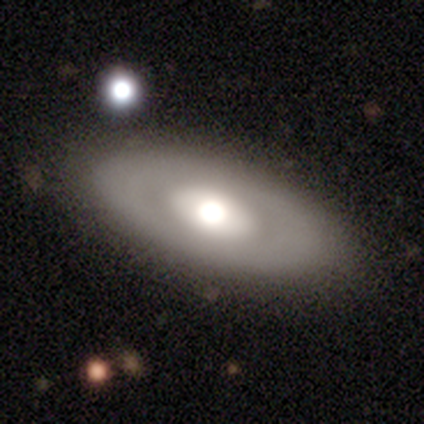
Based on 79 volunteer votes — Smooth or featured?
  - featured or disk: 63% *
  - smooth: 37%
  - star or artifact: 0%
Edge-on disk?
  - no: 88% *
  - yes: 12%
Bar?
  - no: 91% *
  - strong: 5%
  - weak: 5%
Spiral arms?
  - no: 100% *
  - yes: 0%
Bulge size?
  - moderate: 41% *
  - large: 39%
  - dominant: 20%
  - small: 0%
  - none: 0%
Merging?
  - none: 59% *
  - minor disturbance: 6%
  - merger: 4%
  - major disturbance: 1%